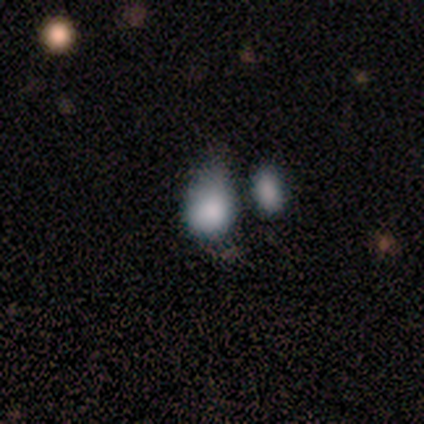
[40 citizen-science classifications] This is likely a smooth galaxy (75%). How rounded: likely in between (70%). Merging: marginally minor disturbance (38%).